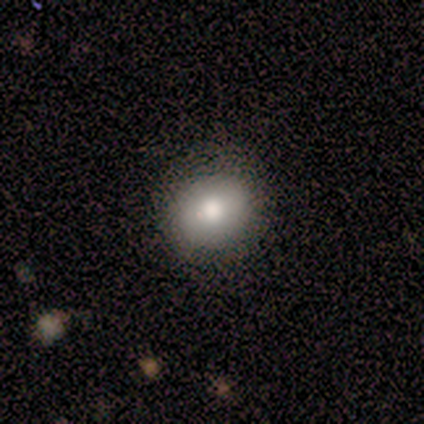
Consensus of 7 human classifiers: smooth-or-featured: smooth: 71% | featured or disk: 14% | star or artifact: 14%
  how-rounded: round: 100% | in between: 0% | cigar-shaped: 0%
  merging: none: 67% | minor disturbance: 33% | major disturbance: 0% | merger: 0%